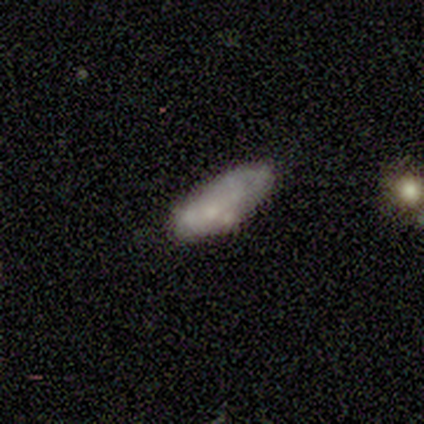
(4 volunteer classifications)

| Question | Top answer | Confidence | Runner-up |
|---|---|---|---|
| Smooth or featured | smooth | 75% | featured or disk (25%) |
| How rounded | in between | 100% | — |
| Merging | none | 100% | — |